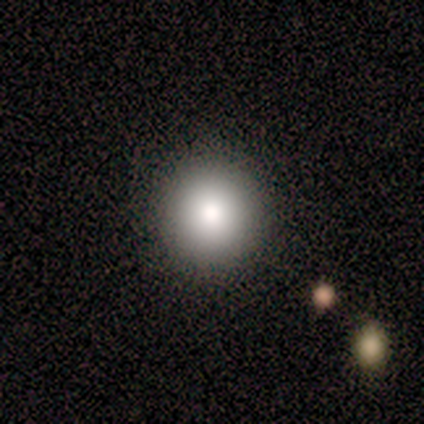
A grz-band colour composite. It shows a smooth galaxy with no disk features (100%) that is round (100%). Merging: none (100%).